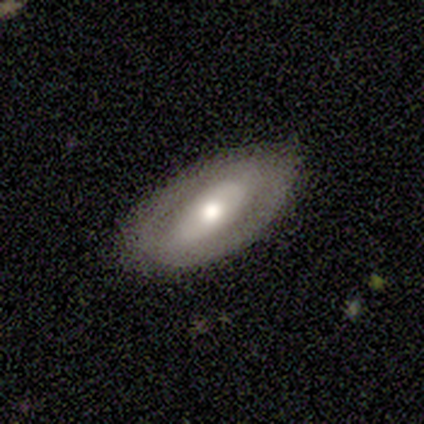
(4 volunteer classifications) Smooth or featured: featured or disk — 75% (smooth — 25%)
Edge-on disk: no — 67% (yes — 33%)
Bar: no — 100%
Spiral arms: yes — 50% (tied with no — 50%)
Spiral winding: loose — 100%
Spiral arm count: 2 — 100%
Bulge size: large — 50% (tied with small — 50%)
Merging: none — 100%